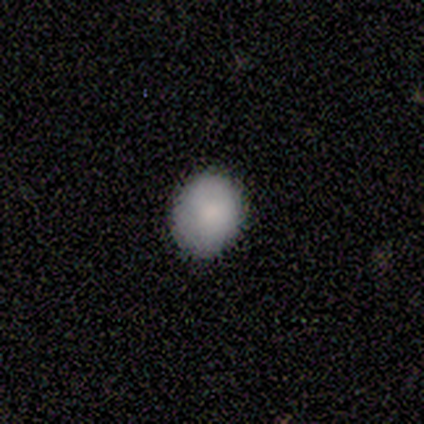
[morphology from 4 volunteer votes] A smooth galaxy with no disk features (100%) that is round (50%, tied with in between). Merging: none (75%).